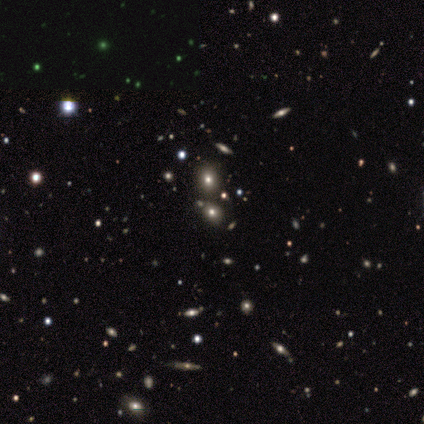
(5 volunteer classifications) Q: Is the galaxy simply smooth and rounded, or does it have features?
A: smooth — 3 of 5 (60%).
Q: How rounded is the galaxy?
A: in between — 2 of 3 (67%).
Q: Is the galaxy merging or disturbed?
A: none — 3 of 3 (100%).